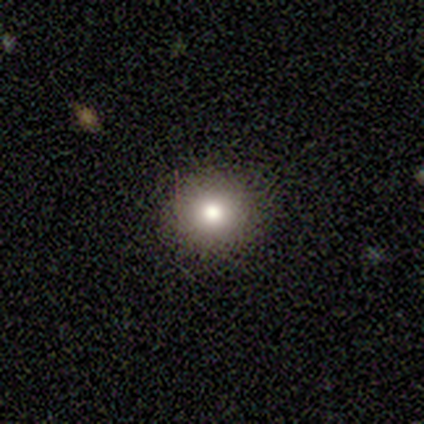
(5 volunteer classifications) A smooth galaxy with no disk features (80%) that is round (100%).

Vote fractions:
- Smooth or featured? smooth: 80% / star or artifact: 20% / featured or disk: 0%
- How rounded? round: 100% / in between: 0% / cigar-shaped: 0%
- Merging? none: 100% / minor disturbance: 0% / major disturbance: 0% / merger: 0%